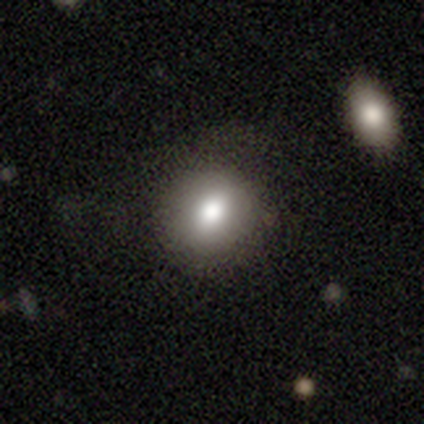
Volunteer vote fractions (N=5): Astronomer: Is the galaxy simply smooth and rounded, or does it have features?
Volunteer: smooth — 80%.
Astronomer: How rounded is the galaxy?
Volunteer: round — 50%, tied with in between at 50%.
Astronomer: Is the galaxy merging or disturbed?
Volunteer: none — 60% (runner-up: minor disturbance, 40%).